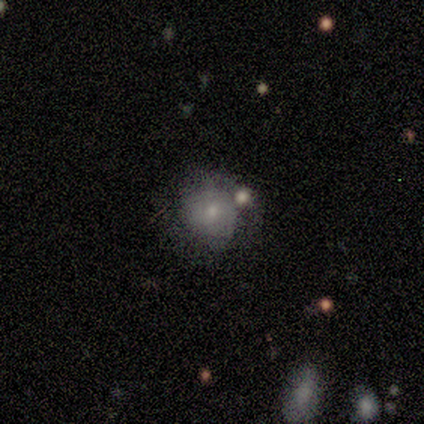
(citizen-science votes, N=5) A featured or disk galaxy (60%) with no bar (100%), no spiral arms (100%) and a small central bulge (67%).

Vote fractions:
- Smooth or featured? featured or disk: 60% / smooth: 40% / star or artifact: 0%
- Edge-on disk? no: 100% / yes: 0%
- Bar? no: 100% / strong: 0% / weak: 0%
- Spiral arms? no: 100% / yes: 0%
- Bulge size? small: 67% / moderate: 33% / dominant: 0% / large: 0% / none: 0%
- Merging? none: 40% / minor disturbance: 20% / major disturbance: 20% / merger: 20%